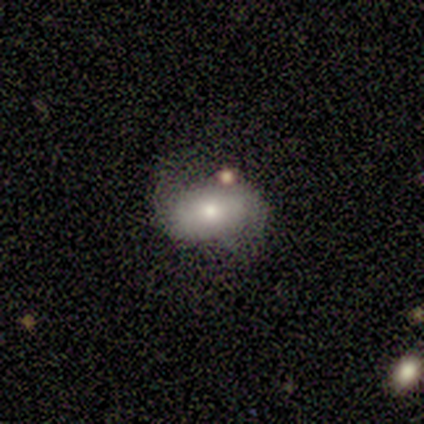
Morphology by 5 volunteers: This appears to be a smooth galaxy with no disk features (80%) that is in between round and cigar-shaped (100%). Merging: none (40%, tied with minor disturbance).